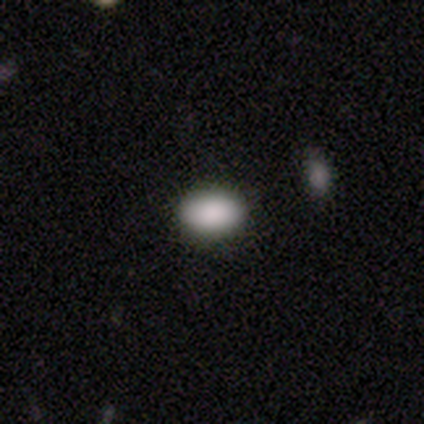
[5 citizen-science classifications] smooth_or_featured: smooth (p=1.00)
how_rounded: in between (p=0.80) [alt: round p=0.20]
merging: none (p=0.40) [tied with: minor disturbance p=0.40]